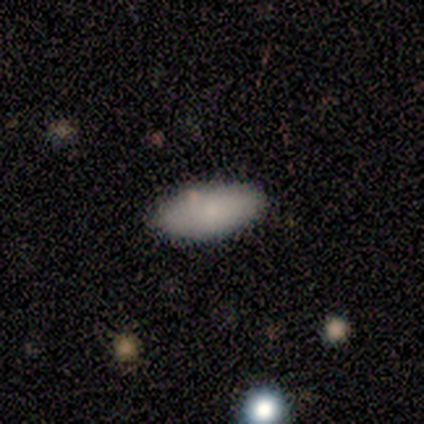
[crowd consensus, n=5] Smooth or featured? smooth (60%)
How rounded? in between (100%)
Merging? none (75%)